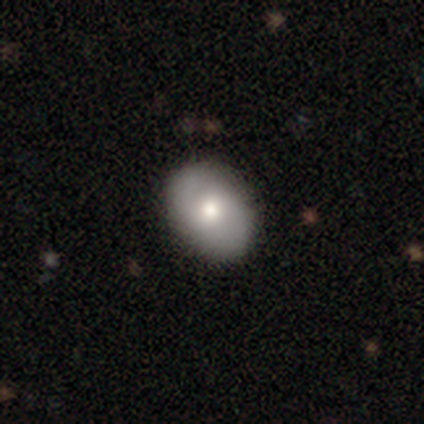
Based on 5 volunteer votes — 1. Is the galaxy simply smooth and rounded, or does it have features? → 60% featured or disk, 40% smooth, 0% star or artifact.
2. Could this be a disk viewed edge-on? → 100% no, 0% yes.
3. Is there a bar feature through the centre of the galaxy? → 100% no, 0% strong, 0% weak.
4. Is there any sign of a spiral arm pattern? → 67% no, 33% yes.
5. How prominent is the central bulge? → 67% moderate, 33% large, 0% dominant, 0% small, 0% none.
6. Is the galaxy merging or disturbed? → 100% none, 0% minor disturbance, 0% major disturbance, 0% merger.